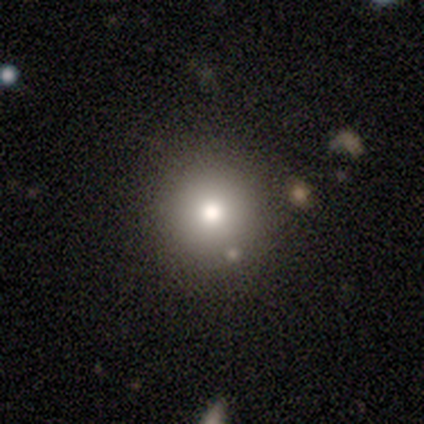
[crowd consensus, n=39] Smooth or featured: smooth — 69% (star or artifact — 23%)
How rounded: round — 93% (in between — 7%)
Merging: none — 83% (minor disturbance — 10%)